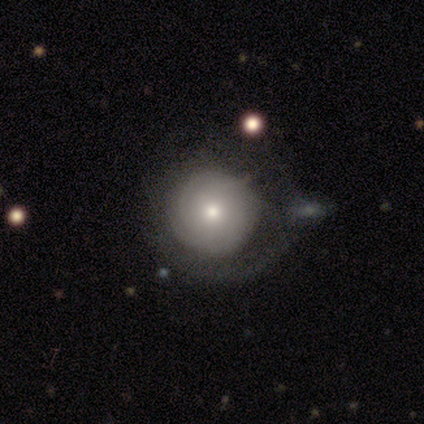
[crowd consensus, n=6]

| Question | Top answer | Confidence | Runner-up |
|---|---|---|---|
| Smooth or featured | smooth | 50% | featured or disk (33%) |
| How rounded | round | 67% | in between (33%) |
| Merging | major disturbance | 60% | none (40%) |